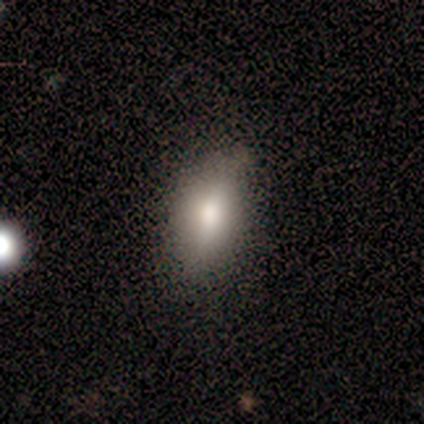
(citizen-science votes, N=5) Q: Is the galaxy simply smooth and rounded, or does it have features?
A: smooth — 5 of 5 (100%).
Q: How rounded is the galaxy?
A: in between — 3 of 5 (60%).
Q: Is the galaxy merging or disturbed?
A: none — 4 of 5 (80%).